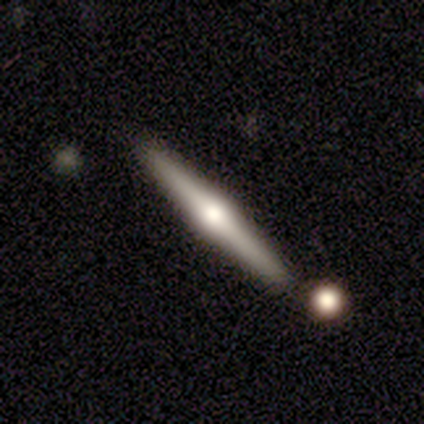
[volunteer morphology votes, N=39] smooth_or_featured: featured or disk (p=0.77) [alt: smooth p=0.21]
disk_edge_on: yes (p=1.00)
edge_on_bulge: rounded (p=0.97) [alt: boxy p=0.03]
merging: none (p=0.87) [alt: minor disturbance p=0.08]